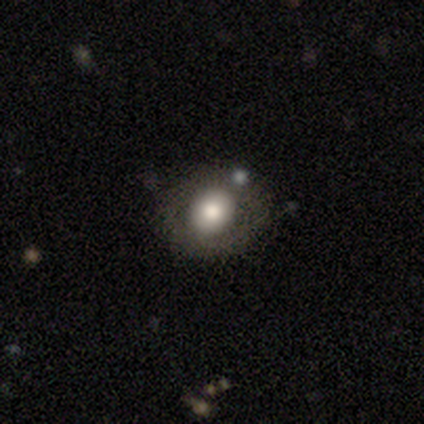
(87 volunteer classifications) Smooth or featured: smooth — 62% (featured or disk — 28%)
How rounded: round — 80% (in between — 20%)
Merging: none — 68% (minor disturbance — 22%)